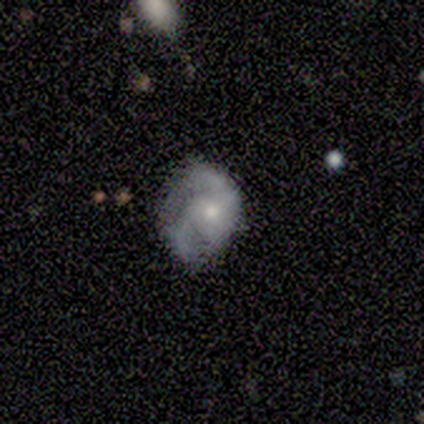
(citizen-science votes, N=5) Smooth or featured: featured or disk — 60% (smooth — 20%)
Edge-on disk: no — 100%
Bar: no — 100%
Spiral arms: yes — 100%
Spiral winding: tight — 67% (medium — 33%)
Spiral arm count: 2 — 100%
Bulge size: small — 100%
Merging: none — 75% (minor disturbance — 25%)